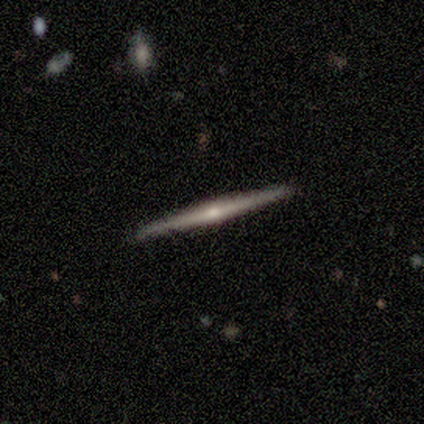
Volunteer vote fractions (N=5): Morphology: type=featured or disk (100%); edge-on=yes (100%); edge-on bulge=none (100%); merging=none (80%).